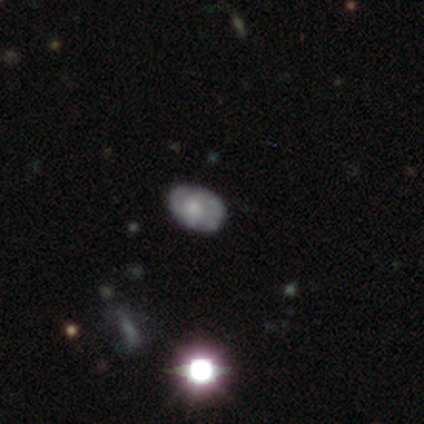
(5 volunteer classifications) Overall: featured or disk (40%, tied with star or artifact). Edge-on disk: no (100%). Bar: no (100%). Spiral arms: yes (50%, tied with no). Spiral arm count: 2 (100%). Spiral winding: medium (100%). Bulge size: moderate (50%, tied with small). Merging: none (33%, tied with minor disturbance and major disturbance).